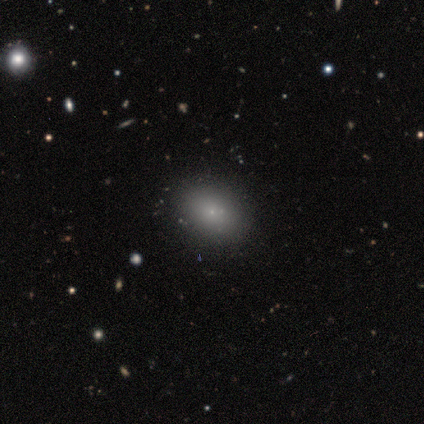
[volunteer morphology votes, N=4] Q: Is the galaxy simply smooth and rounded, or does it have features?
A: smooth — 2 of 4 (50%, tied with star or artifact).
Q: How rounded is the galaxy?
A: in between — 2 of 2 (100%).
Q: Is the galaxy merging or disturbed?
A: none — 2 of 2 (100%).